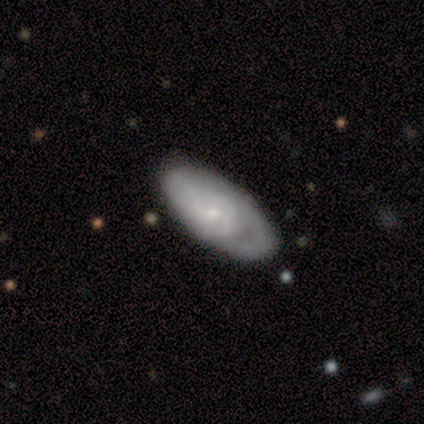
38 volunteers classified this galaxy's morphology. smooth-or-featured: featured or disk: 68% | smooth: 26% | star or artifact: 5%
  disk-edge-on: no: 100% | yes: 0%
    bar: no: 85% | weak: 15% | strong: 0%
    has-spiral-arms: yes: 69% | no: 31%
      spiral-winding: tight: 78% | medium: 17% | loose: 6%
      spiral-arm-count: can't tell: 72% | 1: 11% | 2: 6% | 3: 6% | 4: 6% | more than 4: 0%
    bulge-size: small: 77% | moderate: 23% | dominant: 0% | large: 0% | none: 0%
  merging: none: 86% | minor disturbance: 14% | major disturbance: 0% | merger: 0%